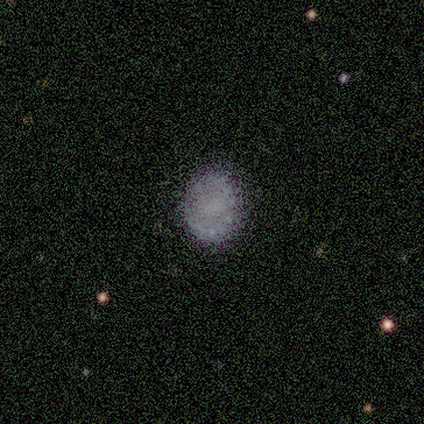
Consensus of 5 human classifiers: Overall: smooth (60%; star or artifact 40%). How rounded: in between (100%). Merging: none (67%; minor disturbance 33%).